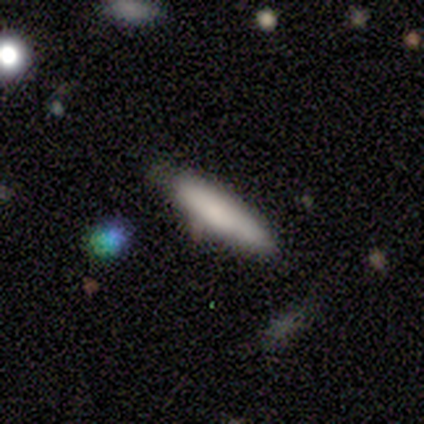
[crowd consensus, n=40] Smooth or featured: smooth — 82% (featured or disk — 15%)
How rounded: cigar-shaped — 82% (in between — 18%)
Merging: none — 69% (minor disturbance — 15%)